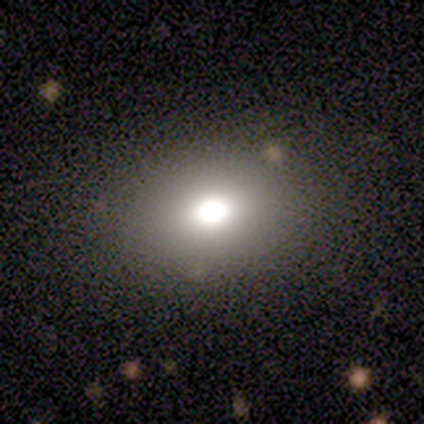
Morphology: type=smooth (60%); roundness=in between (100%); merging=none (67%).